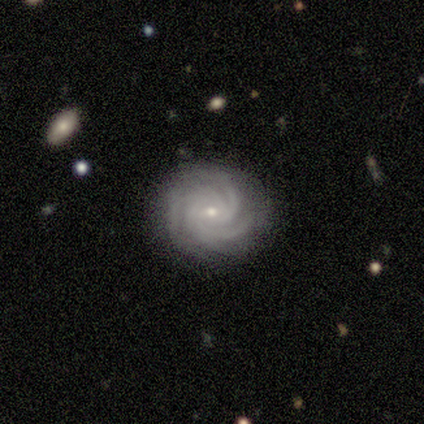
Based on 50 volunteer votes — Q: Smooth or featured?
A: featured or disk (94%); runner-up: smooth (4%)
Q: Edge-on disk?
A: no (100%)
Q: Bar?
A: no (60%); runner-up: weak (36%)
Q: Spiral arms?
A: yes (100%)
Q: Spiral winding?
A: tight (74%); runner-up: medium (26%)
Q: Spiral arm count?
A: 3 (55%); runner-up: 4 (28%)
Q: Bulge size?
A: small (70%); runner-up: moderate (28%)
Q: Merging?
A: none (82%); runner-up: minor disturbance (16%)